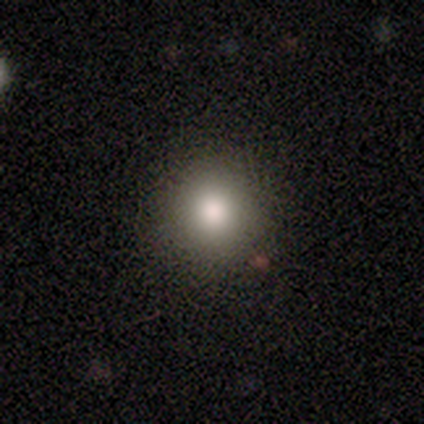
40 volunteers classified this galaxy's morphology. Smooth or featured?
  - smooth: 90% *
  - featured or disk: 5%
  - star or artifact: 5%
How rounded?
  - round: 97% *
  - in between: 3%
  - cigar-shaped: 0%
Merging?
  - none: 92% *
  - minor disturbance: 5%
  - major disturbance: 3%
  - merger: 0%